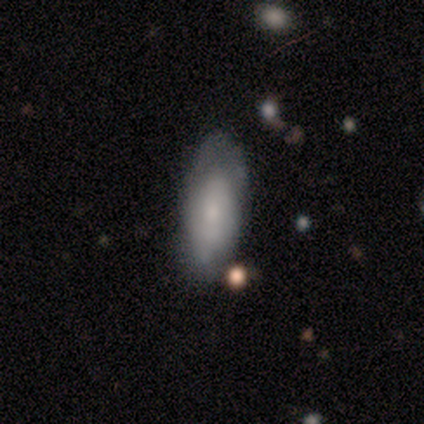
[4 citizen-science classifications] A smooth galaxy with no disk features (50%, tied with featured or disk) that is in between round and cigar-shaped (50%, tied with cigar-shaped). Merging: none (50%, tied with minor disturbance).